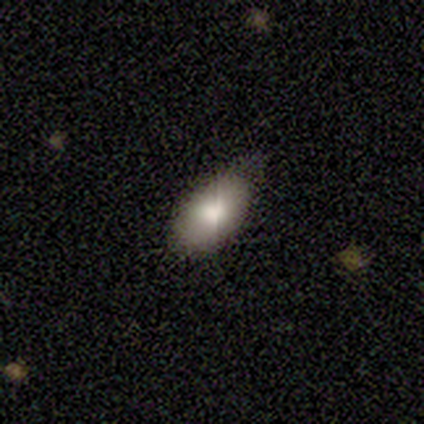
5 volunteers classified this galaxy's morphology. This appears to be a smooth galaxy with no disk features (100%) that is in between round and cigar-shaped (100%). Merging: none (80%).